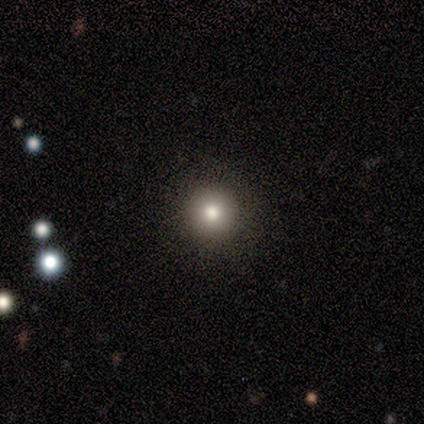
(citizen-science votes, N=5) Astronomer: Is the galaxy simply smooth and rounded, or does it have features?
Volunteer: smooth — 80%.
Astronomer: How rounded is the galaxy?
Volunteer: round — 100%.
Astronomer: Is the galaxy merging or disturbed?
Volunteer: none — 100%.